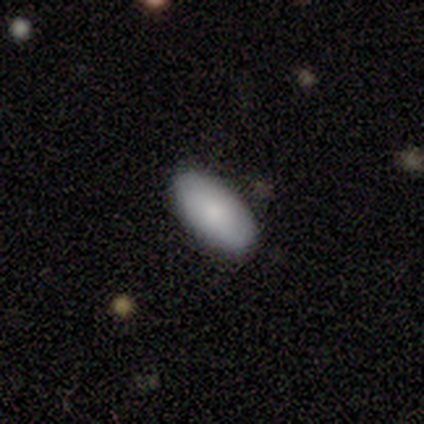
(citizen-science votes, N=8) smooth 88%, featured or disk 12%, star or artifact 0%. Down the decision tree: how rounded — in between (100%); merging — none (88%).